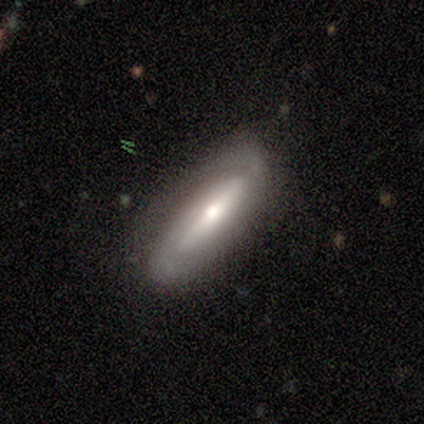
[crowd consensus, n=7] Smooth or featured?
  - featured or disk: 100% *
  - smooth: 0%
  - star or artifact: 0%
Edge-on disk?
  - no: 86% *
  - yes: 14%
Bar?
  - strong: 67% *
  - weak: 33%
  - no: 0%
Spiral arms?
  - yes: 100% *
  - no: 0%
Spiral winding?
  - tight: 50% *
  - loose: 33%
  - medium: 17%
Spiral arm count?
  - 2: 83% *
  - 1: 17%
  - 3: 0%
  - 4: 0%
  - more than 4: 0%
  - can't tell: 0%
Bulge size?
  - moderate: 50% *
  - small: 33%
  - none: 17%
  - dominant: 0%
  - large: 0%
Merging?
  - none: 100% *
  - minor disturbance: 0%
  - major disturbance: 0%
  - merger: 0%